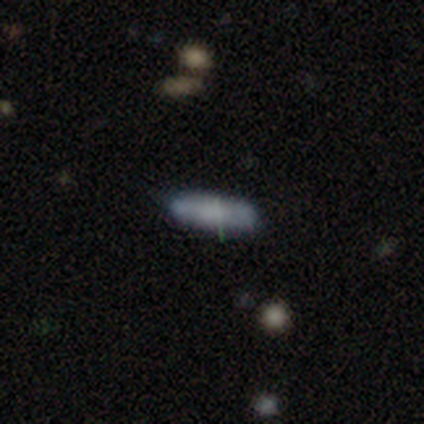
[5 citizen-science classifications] smooth-or-featured: smooth: 60% | featured or disk: 40% | star or artifact: 0%
  how-rounded: in between: 100% | round: 0% | cigar-shaped: 0%
  merging: none: 80% | minor disturbance: 20% | major disturbance: 0% | merger: 0%